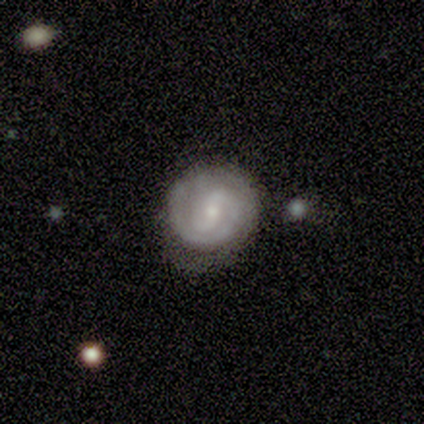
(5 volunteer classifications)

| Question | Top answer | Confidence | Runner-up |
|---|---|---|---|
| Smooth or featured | featured or disk | 100% | — |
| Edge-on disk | no | 100% | — |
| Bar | weak | 40% | tied: no (40%) |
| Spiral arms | yes | 100% | — |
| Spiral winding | tight | 80% | loose (20%) |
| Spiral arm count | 2 | 40% | tied: can't tell (40%) |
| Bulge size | small | 80% | moderate (20%) |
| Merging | none | 80% | minor disturbance (20%) |